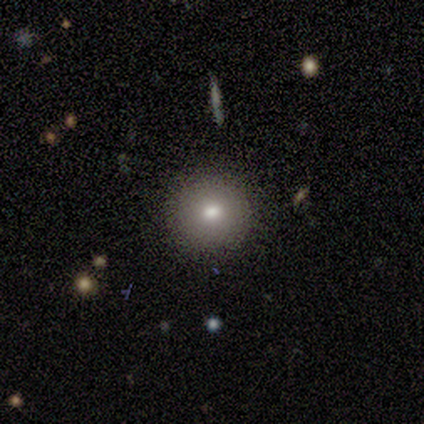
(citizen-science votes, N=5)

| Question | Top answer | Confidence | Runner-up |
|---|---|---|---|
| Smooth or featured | smooth | 80% | featured or disk (20%) |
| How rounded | round | 100% | — |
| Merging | none | 100% | — |